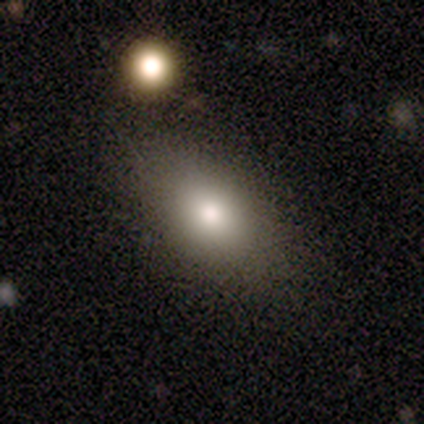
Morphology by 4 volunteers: This is likely a smooth galaxy (75%). How rounded: clearly in between (100%). Merging: likely none (67%).